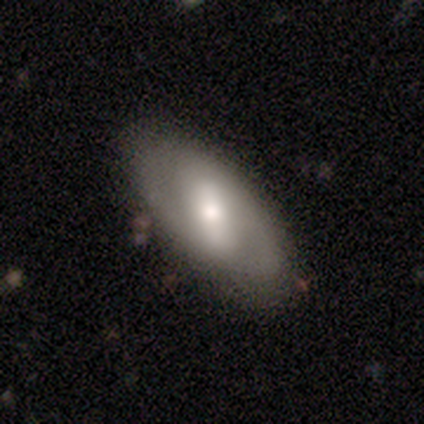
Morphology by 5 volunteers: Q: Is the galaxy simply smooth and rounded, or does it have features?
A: featured or disk — 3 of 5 (60%).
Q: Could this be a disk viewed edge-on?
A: no — 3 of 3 (100%).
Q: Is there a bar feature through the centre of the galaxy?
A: strong — 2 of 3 (67%).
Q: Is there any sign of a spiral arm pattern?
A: yes — 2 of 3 (67%).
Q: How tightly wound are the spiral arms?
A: tight — 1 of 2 (50%, tied with medium).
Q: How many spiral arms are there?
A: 2 — 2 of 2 (100%).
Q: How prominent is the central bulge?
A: moderate — 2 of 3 (67%).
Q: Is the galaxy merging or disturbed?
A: none — 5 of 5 (100%).